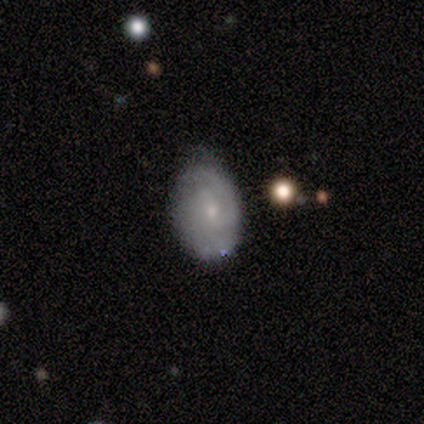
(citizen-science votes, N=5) Smooth or featured: smooth — 60% (featured or disk — 20%)
How rounded: in between — 67% (round — 33%)
Merging: none — 100%